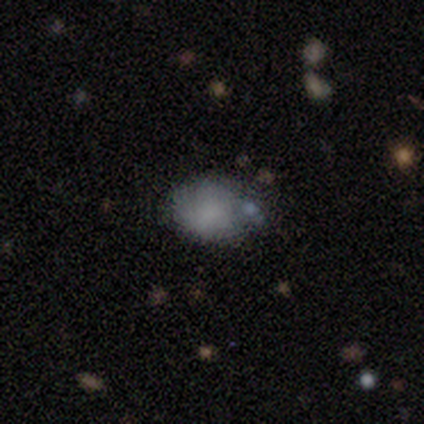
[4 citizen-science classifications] This is likely a smooth galaxy (75%). How rounded: likely in between (67%). Merging: likely none (75%).